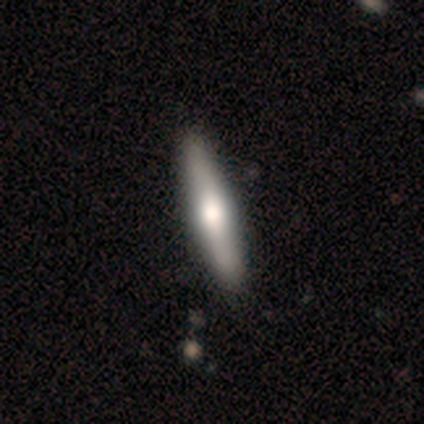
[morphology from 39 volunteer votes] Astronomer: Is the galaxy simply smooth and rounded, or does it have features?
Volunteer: featured or disk — 56% (runner-up: smooth, 41%).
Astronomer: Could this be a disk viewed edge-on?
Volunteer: yes — 95%.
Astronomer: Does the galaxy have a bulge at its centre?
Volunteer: rounded — 86%.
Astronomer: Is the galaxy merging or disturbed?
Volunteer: none — 63%.